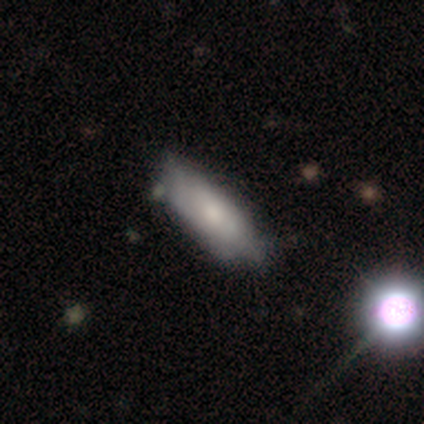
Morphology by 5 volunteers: A smooth galaxy with no disk features (80%) that is in between round and cigar-shaped (50%). Merging: minor disturbance (60%).